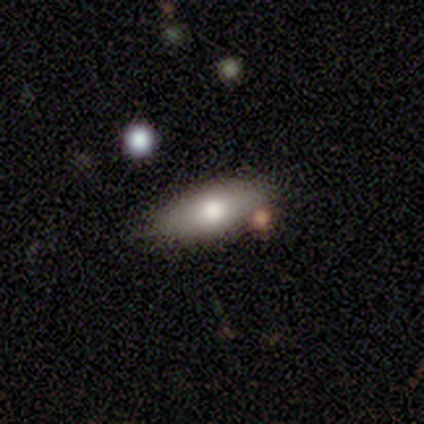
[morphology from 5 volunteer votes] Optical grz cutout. It shows a featured or disk galaxy (60%) viewed edge-on (67%) with a rounded central bulge (100%). Merging: minor disturbance (60%).